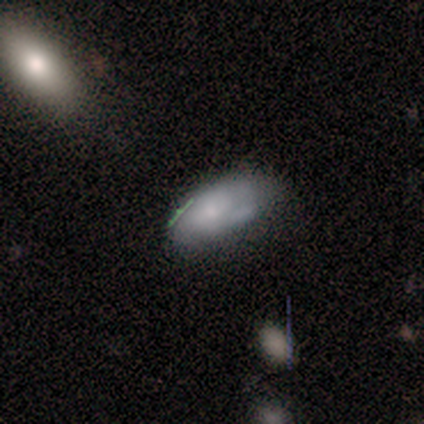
Smooth or featured? smooth (60%)
How rounded? in between (100%)
Merging? none (50%, tied with minor disturbance)